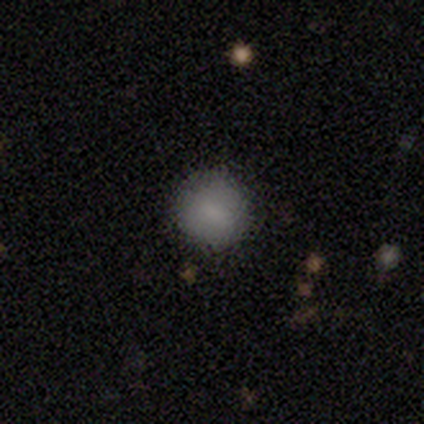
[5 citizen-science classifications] Morphology: type=smooth (100%); roundness=round (100%); merging=none (100%).